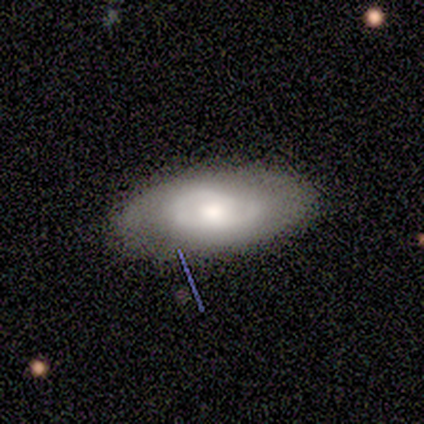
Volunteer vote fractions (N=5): Overall: smooth (80%). How rounded: round (50%, tied with in between). Merging: none (75%).